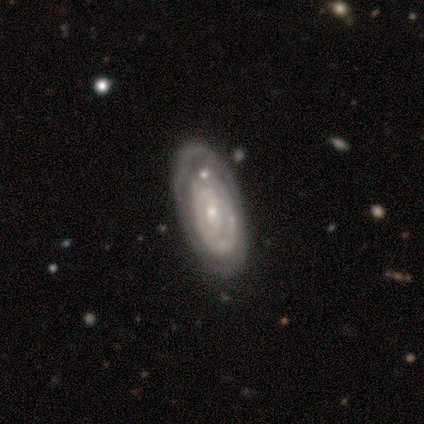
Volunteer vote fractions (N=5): Smooth or featured?
  - featured or disk: 80% *
  - star or artifact: 20%
  - smooth: 0%
Edge-on disk?
  - no: 100% *
  - yes: 0%
Bar?
  - weak: 50% *
  - strong: 25%
  - no: 25%
Spiral arms?
  - yes: 75% *
  - no: 25%
Spiral winding?
  - medium: 67% *
  - tight: 33%
  - loose: 0%
Spiral arm count?
  - 2: 33% * (tied)
  - 3: 33% * (tied)
  - can't tell: 33% * (tied)
  - 1: 0%
  - 4: 0%
  - more than 4: 0%
Bulge size?
  - moderate: 50% * (tied)
  - small: 50% * (tied)
  - dominant: 0%
  - large: 0%
  - none: 0%
Merging?
  - none: 50% *
  - minor disturbance: 25%
  - merger: 25%
  - major disturbance: 0%